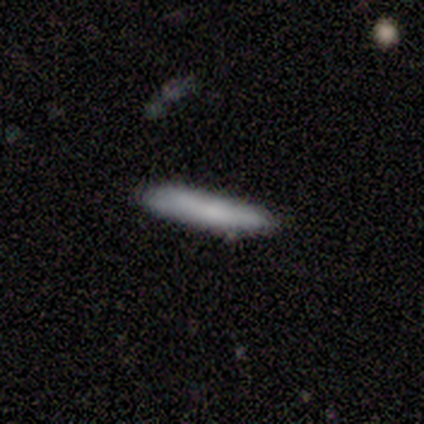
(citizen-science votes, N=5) Morphology: type=smooth (80%); roundness=cigar-shaped (75%); merging=none (75%).